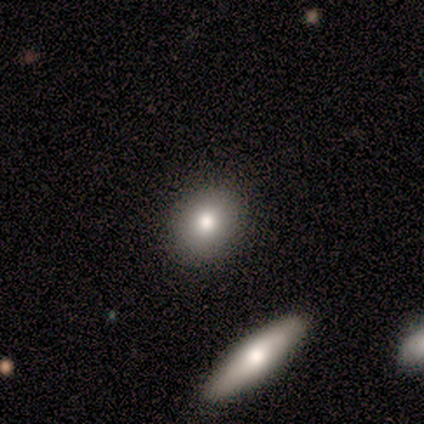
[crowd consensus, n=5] smooth 100%, featured or disk 0%, star or artifact 0%. Down the decision tree: how rounded — round (60%); merging — none (100%).